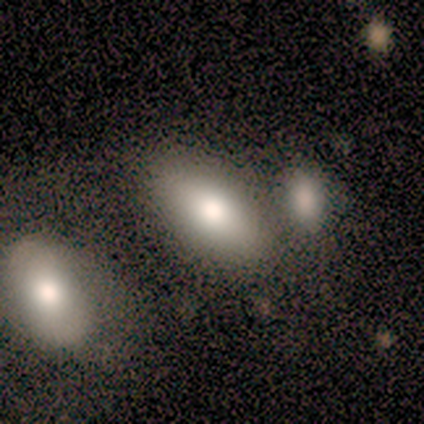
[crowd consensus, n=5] Morphology: type=smooth (80%); roundness=in between (100%); merging=none (100%).